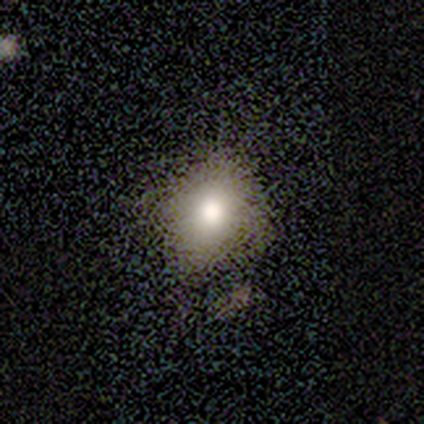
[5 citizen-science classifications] Volunteers were most divided on "how rounded": in between: 80%, round: 20%, cigar-shaped: 0%. More confident: smooth or featured — smooth (100%); merging — none (80%).